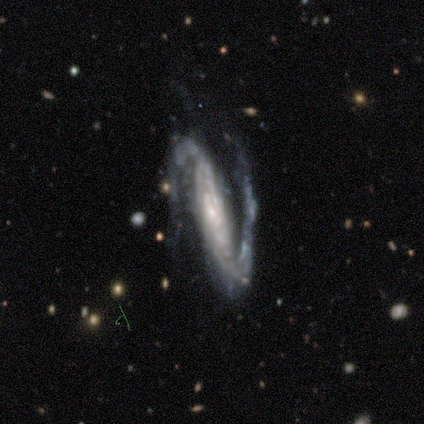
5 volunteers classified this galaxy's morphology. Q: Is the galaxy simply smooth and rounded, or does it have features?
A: featured or disk — 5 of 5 (100%).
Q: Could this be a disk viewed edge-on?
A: no — 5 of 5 (100%).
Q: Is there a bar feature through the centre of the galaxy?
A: strong — 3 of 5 (60%).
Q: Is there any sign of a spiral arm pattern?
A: yes — 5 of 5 (100%).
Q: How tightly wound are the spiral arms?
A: tight — 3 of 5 (60%).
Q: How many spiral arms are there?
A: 2 — 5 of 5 (100%).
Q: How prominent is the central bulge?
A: moderate — 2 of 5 (40%, tied with small).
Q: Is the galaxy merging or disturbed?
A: none — 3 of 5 (60%).